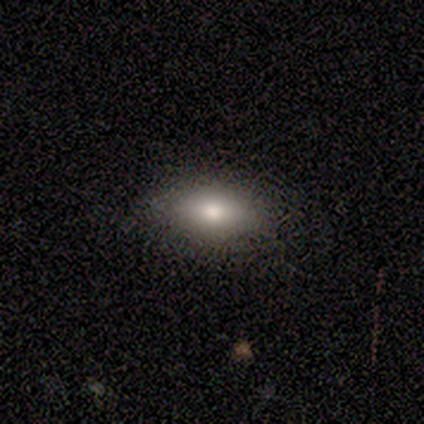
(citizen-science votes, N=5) smooth_or_featured: smooth (p=1.00)
how_rounded: in between (p=0.80) [alt: cigar-shaped p=0.20]
merging: none (p=0.80) [alt: minor disturbance p=0.20]